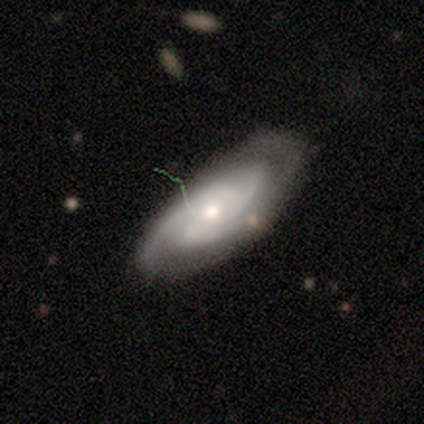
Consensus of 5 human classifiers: Overall: featured or disk (100%). Edge-on disk: no (80%). Bar: weak (50%, tied with no). Spiral arms: yes (100%). Spiral arm count: 3 (75%). Spiral winding: loose (50%; tight 25%). Bulge size: moderate (50%, tied with small). Merging: minor disturbance (60%; none 40%).